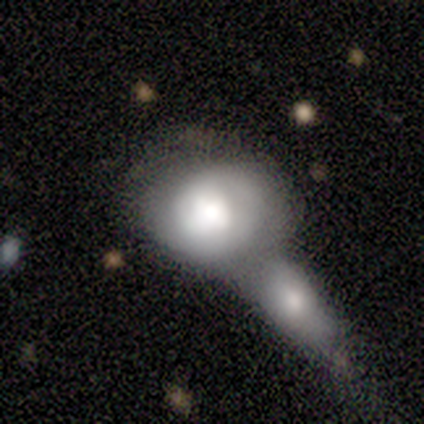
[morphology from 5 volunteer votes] This appears to be a smooth galaxy with no disk features (60%) that is in between round and cigar-shaped (100%). Merging: merger (100%).